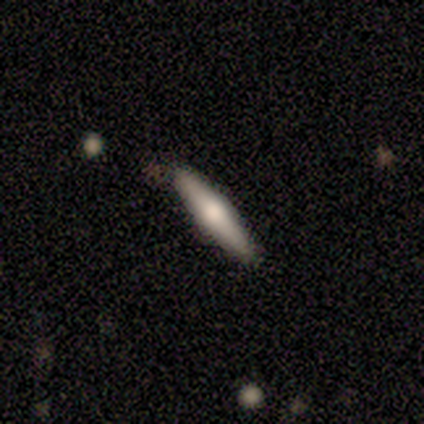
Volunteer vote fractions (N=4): A smooth galaxy with no disk features (50%) that is cigar-shaped (100%).

Vote fractions:
- Smooth or featured? smooth: 50% / featured or disk: 25% / star or artifact: 25%
- How rounded? cigar-shaped: 100% / round: 0% / in between: 0%
- Merging? none: 100% / minor disturbance: 0% / major disturbance: 0% / merger: 0%